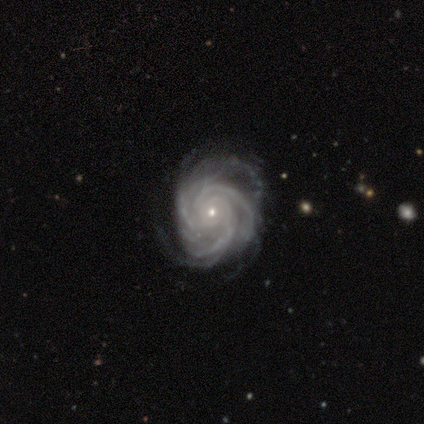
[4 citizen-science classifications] Volunteers were most divided on "bar": no: 67%, weak: 33%, strong: 0%. More confident: edge-on disk — no (100%); spiral arms — yes (100%); bulge size — small (100%); smooth or featured — featured or disk (75%); spiral winding — tight (67%); spiral arm count — more than 4 (67%); merging — none (67%).